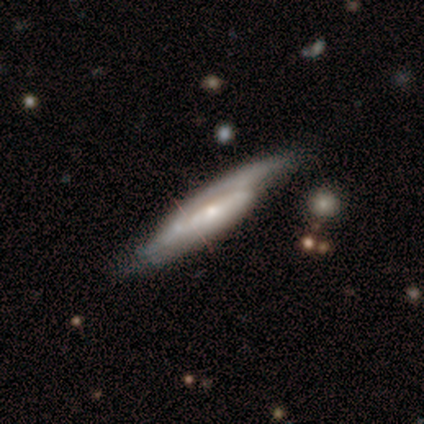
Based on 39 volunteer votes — smooth-or-featured: featured or disk: 74% | smooth: 23% | star or artifact: 3%
  disk-edge-on: yes: 55% | no: 45%
    edge-on-bulge: rounded: 56% | none: 44% | boxy: 0%
  merging: none: 53% | minor disturbance: 32% | major disturbance: 8% | merger: 8%